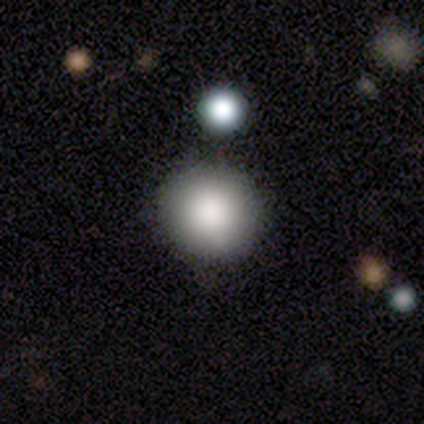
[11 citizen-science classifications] This appears to be a smooth galaxy with no disk features (91%) that is round (90%). Merging: none (73%).